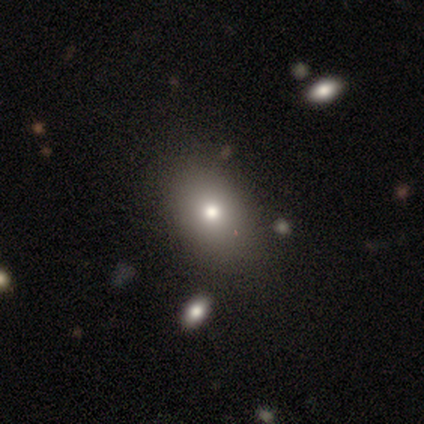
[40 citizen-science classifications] Smooth or featured? smooth (70%)
How rounded? in between (71%)
Merging? none (61%)